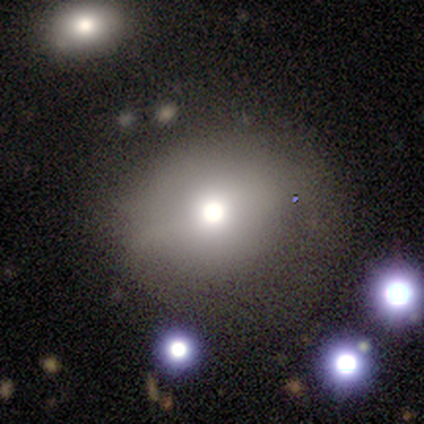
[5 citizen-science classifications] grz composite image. It shows a smooth galaxy with no disk features (80%) that is round (50%, tied with in between). Merging: none (75%).